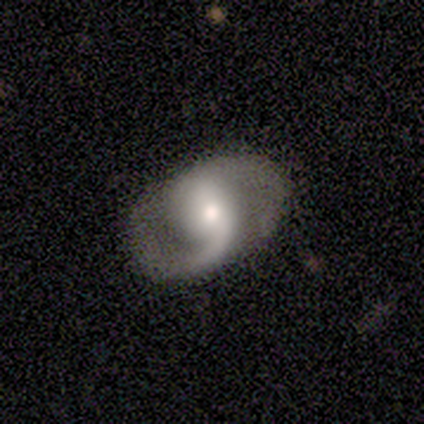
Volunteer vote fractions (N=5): Smooth or featured: featured or disk — 100%
Edge-on disk: no — 100%
Bar: strong — 60% (weak — 20%)
Spiral arms: yes — 100%
Spiral winding: medium — 60% (tight — 20%)
Spiral arm count: 2 — 100%
Bulge size: moderate — 100%
Merging: none — 100%